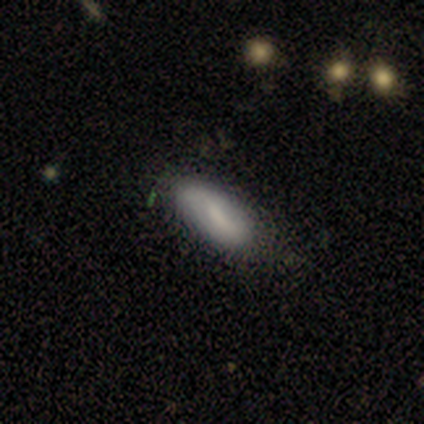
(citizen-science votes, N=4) This appears to be a smooth galaxy with no disk features (75%) that is in between round and cigar-shaped (100%). Merging: none (67%).